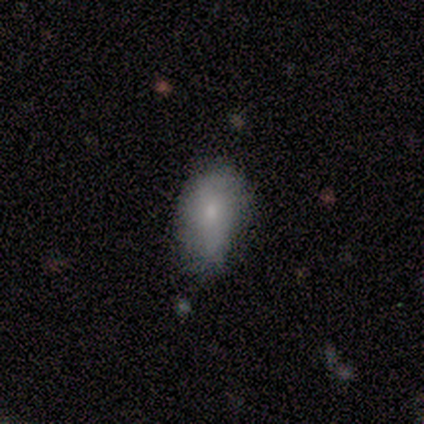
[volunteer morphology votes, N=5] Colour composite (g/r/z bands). It shows a smooth galaxy with no disk features (80%) that is in between round and cigar-shaped (100%). Merging: none (80%).